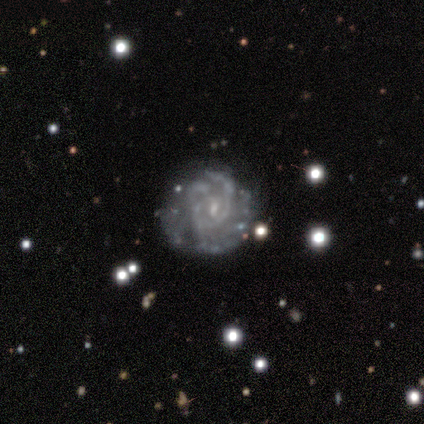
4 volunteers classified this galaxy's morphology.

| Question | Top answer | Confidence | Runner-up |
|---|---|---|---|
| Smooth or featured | featured or disk | 100% | — |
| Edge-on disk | no | 100% | — |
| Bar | weak | 50% | strong (25%) |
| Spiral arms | yes | 100% | — |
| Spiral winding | tight | 75% | loose (25%) |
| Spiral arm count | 3 | 75% | can't tell (25%) |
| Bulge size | none | 50% | moderate (25%) |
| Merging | none | 50% | minor disturbance (25%) |